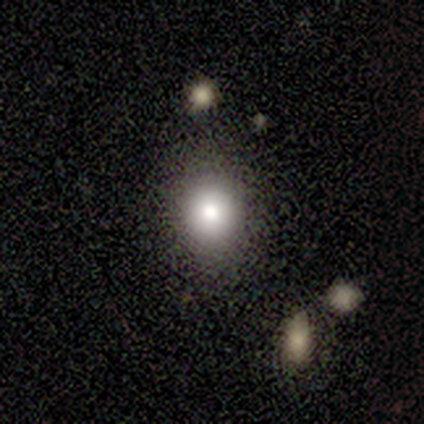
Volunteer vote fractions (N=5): smooth-or-featured: smooth: 80% | featured or disk: 20% | star or artifact: 0%
  how-rounded: round: 75% | in between: 25% | cigar-shaped: 0%
  merging: none: 100% | minor disturbance: 0% | major disturbance: 0% | merger: 0%